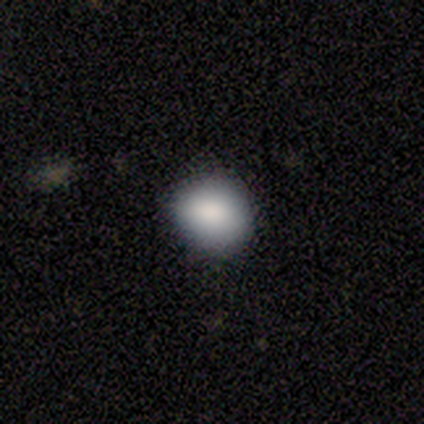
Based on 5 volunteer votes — smooth 80%, star or artifact 20%, featured or disk 0%. Down the decision tree: how rounded — round (50%, tied with in between); merging — none (100%).